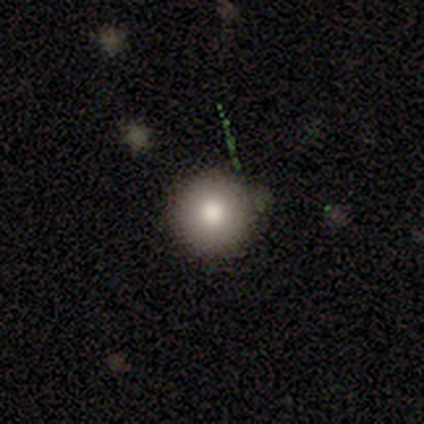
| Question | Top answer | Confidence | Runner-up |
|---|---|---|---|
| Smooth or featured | smooth | 75% | star or artifact (25%) |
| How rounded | round | 100% | — |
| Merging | none | 100% | — |